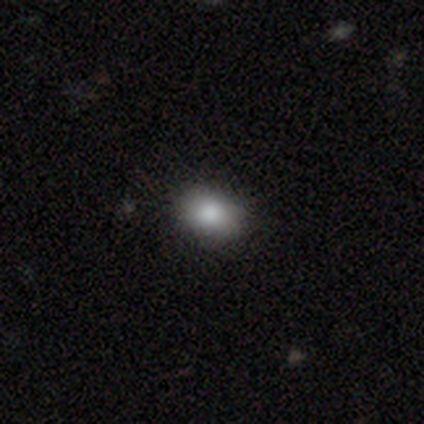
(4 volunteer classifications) This is clearly a smooth galaxy (100%). How rounded: likely in between (75%). Merging: clearly none (100%).